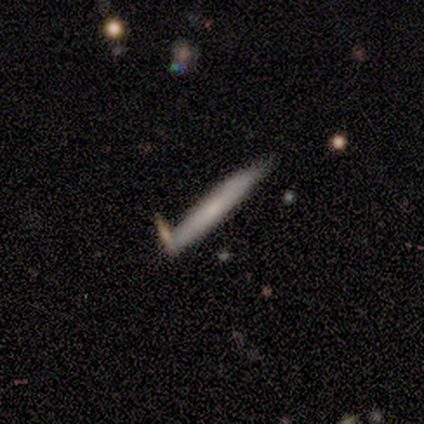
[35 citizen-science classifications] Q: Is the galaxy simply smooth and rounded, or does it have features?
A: smooth — 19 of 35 (54%).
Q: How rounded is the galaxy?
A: cigar-shaped — 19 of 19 (100%).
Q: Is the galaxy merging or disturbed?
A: none — 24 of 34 (71%).